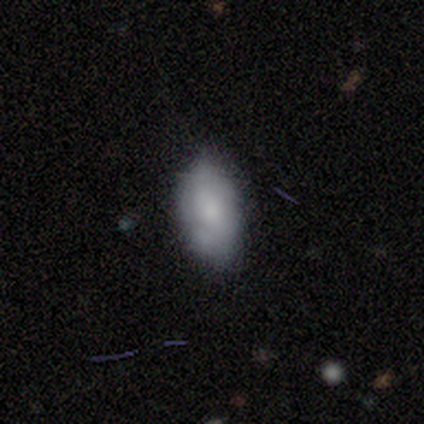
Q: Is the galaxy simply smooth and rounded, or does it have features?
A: smooth — 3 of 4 (75%).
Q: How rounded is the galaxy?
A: in between — 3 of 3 (100%).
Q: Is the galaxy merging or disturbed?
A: none — 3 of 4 (75%).